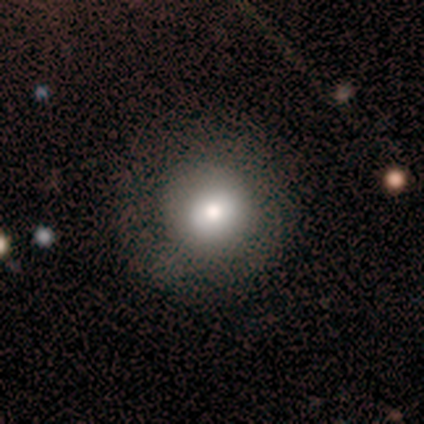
A smooth galaxy with no disk features (94%) that is round (88%).

Vote fractions:
- Smooth or featured? smooth: 94% / featured or disk: 6% / star or artifact: 0%
- How rounded? round: 88% / in between: 12% / cigar-shaped: 0%
- Merging? none: 76% / minor disturbance: 12% / major disturbance: 12% / merger: 0%